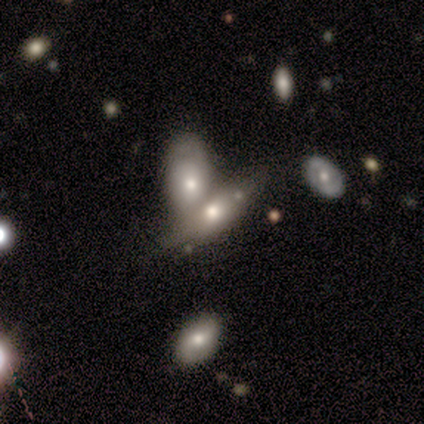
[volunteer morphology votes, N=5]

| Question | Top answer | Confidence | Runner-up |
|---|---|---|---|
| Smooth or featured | featured or disk | 60% | smooth (40%) |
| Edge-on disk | no | 67% | yes (33%) |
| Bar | no | 100% | — |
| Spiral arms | no | 100% | — |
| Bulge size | moderate | 50% | tied: small (50%) |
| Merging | merger | 80% | none (20%) |